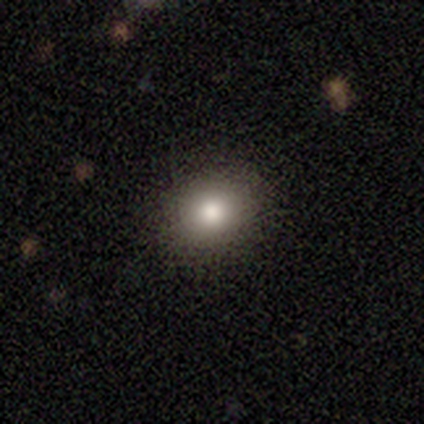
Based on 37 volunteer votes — Overall: smooth (81%). How rounded: round (73%). Merging: none (91%).